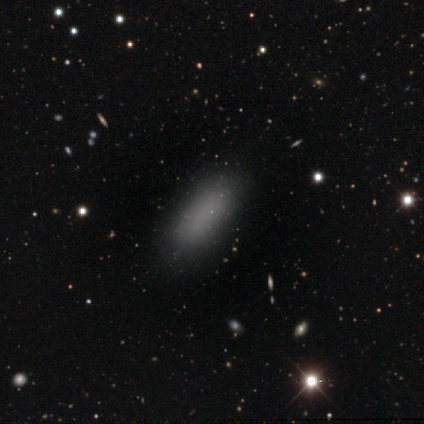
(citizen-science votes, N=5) A smooth galaxy with no disk features (100%) that is in between round and cigar-shaped (80%). Merging: none (80%).